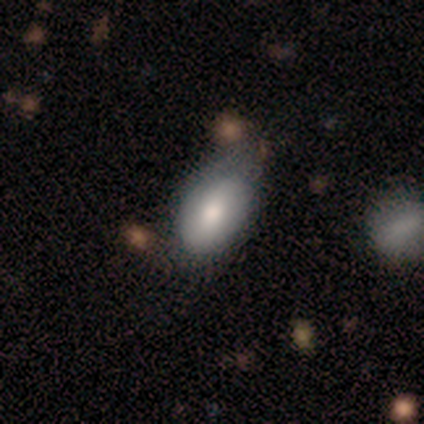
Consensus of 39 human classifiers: A smooth galaxy with no disk features (77%) that is in between round and cigar-shaped (100%). Merging: none (30%).